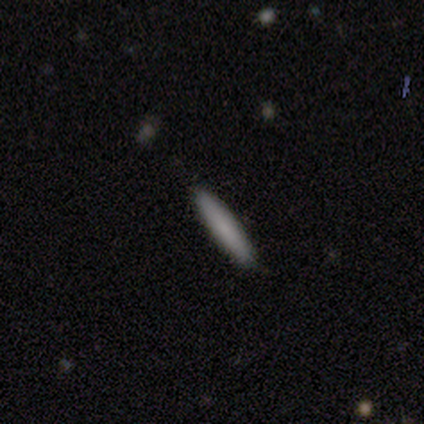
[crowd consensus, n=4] Consensus on every question: smooth or featured — smooth (100%); how rounded — cigar-shaped (100%); merging — none (100%).